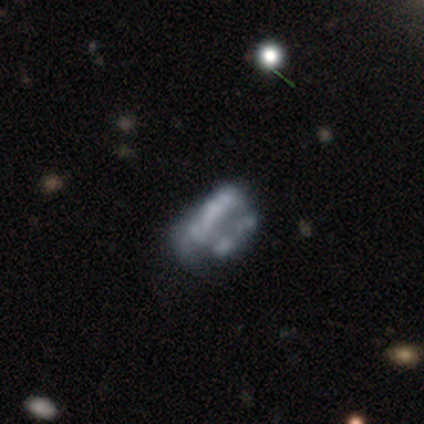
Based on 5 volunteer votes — smooth-or-featured: featured or disk: 80% | star or artifact: 20% | smooth: 0%
  disk-edge-on: no: 100% | yes: 0%
    bar: no: 100% | strong: 0% | weak: 0%
    has-spiral-arms: no: 100% | yes: 0%
    bulge-size: none: 100% | dominant: 0% | large: 0% | moderate: 0% | small: 0%
  merging: major disturbance: 50% | none: 25% | merger: 25% | minor disturbance: 0%